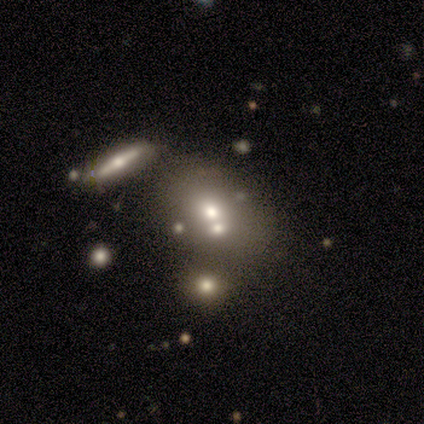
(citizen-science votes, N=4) Smooth or featured? 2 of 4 (50%) said smooth. How rounded? 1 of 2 (50%, tied with cigar-shaped) said in between. Merging? 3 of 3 (100%) said merger.